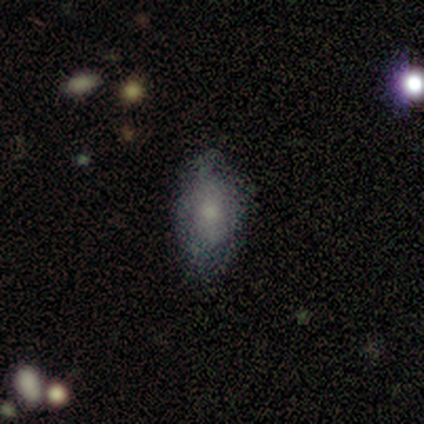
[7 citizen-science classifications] Volunteers were most divided on "smooth or featured": smooth: 71%, featured or disk: 29%, star or artifact: 0%. More confident: merging — none (86%); how rounded — in between (80%).